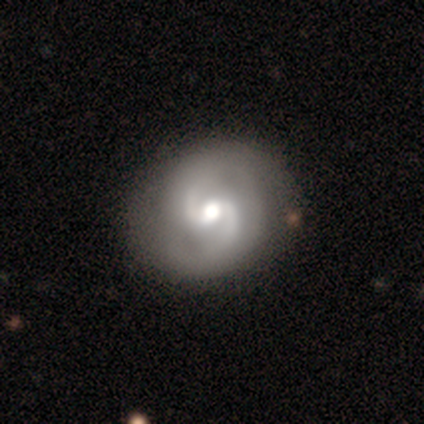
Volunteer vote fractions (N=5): featured or disk 100%, smooth 0%, star or artifact 0%. Down the decision tree: edge-on disk — no (100%); bar — strong (60%); spiral arms — yes (100%); spiral arm count — 2 (100%); spiral winding — loose (60%); bulge size — moderate (100%); merging — none (100%).